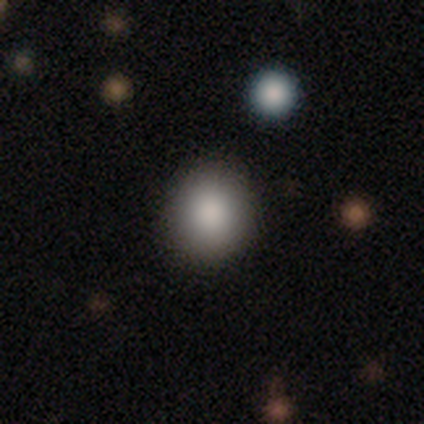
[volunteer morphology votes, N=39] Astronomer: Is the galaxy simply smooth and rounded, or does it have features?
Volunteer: smooth — 85%.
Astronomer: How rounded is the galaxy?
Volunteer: round — 85%.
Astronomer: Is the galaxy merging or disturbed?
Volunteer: none — 89%.